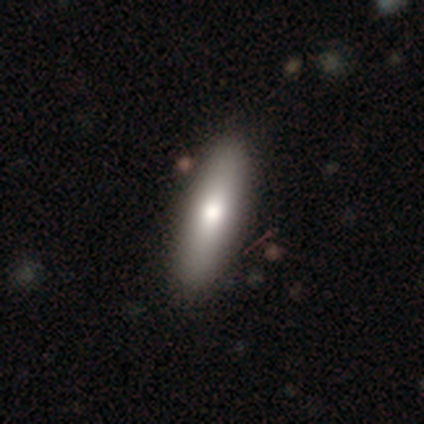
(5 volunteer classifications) Volunteers were most divided on "how rounded": in between: 67%, cigar-shaped: 33%, round: 0%. More confident: merging — none (100%); smooth or featured — smooth (60%).